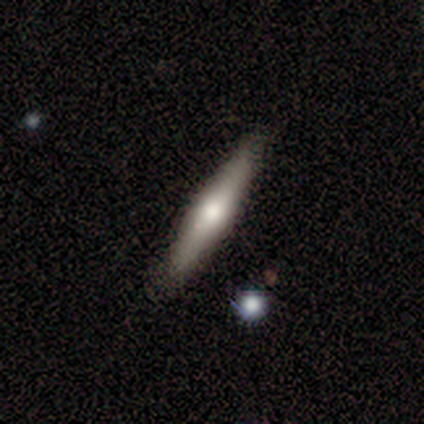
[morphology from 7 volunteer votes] Smooth or featured?
  - featured or disk: 71% *
  - smooth: 29%
  - star or artifact: 0%
Edge-on disk?
  - yes: 100% *
  - no: 0%
Edge-on bulge?
  - rounded: 100% *
  - boxy: 0%
  - none: 0%
Merging?
  - none: 100% *
  - minor disturbance: 0%
  - major disturbance: 0%
  - merger: 0%